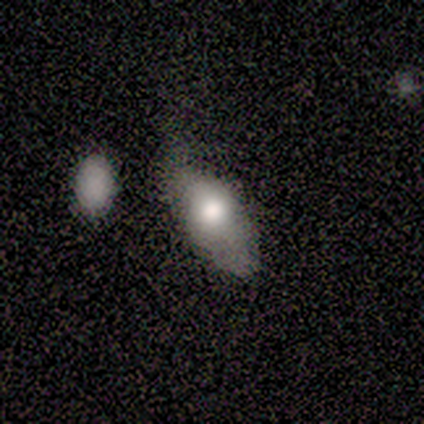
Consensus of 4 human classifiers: This is likely a smooth galaxy (75%). How rounded: clearly in between (100%). Merging: possibly minor disturbance (50%).